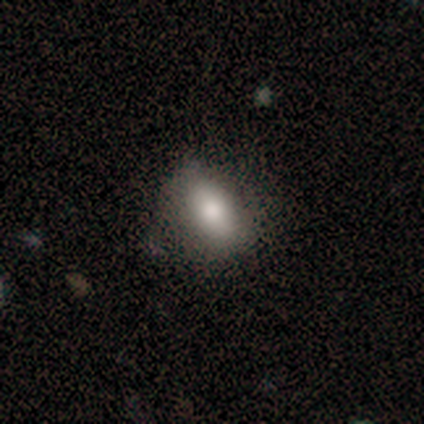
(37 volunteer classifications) Smooth or featured? smooth (73%)
How rounded? in between (85%)
Merging? none (73%)